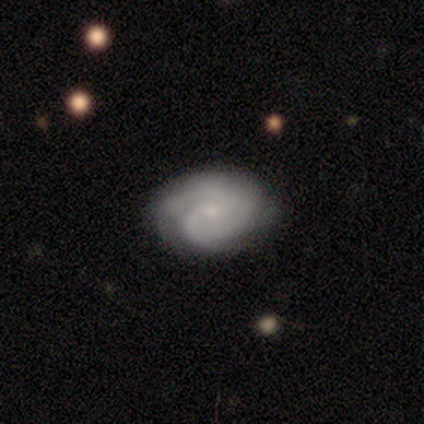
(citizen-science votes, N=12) Q: Smooth or featured?
A: featured or disk (83%); runner-up: smooth (17%)
Q: Edge-on disk?
A: no (100%)
Q: Bar?
A: no (70%); runner-up: weak (30%)
Q: Spiral arms?
A: yes (90%); runner-up: no (10%)
Q: Spiral winding?
A: tight (56%); runner-up: medium (33%)
Q: Spiral arm count?
A: 2 (67%); runner-up: can't tell (22%)
Q: Bulge size?
A: small (90%); runner-up: moderate (10%)
Q: Merging?
A: none (75%); runner-up: minor disturbance (25%)